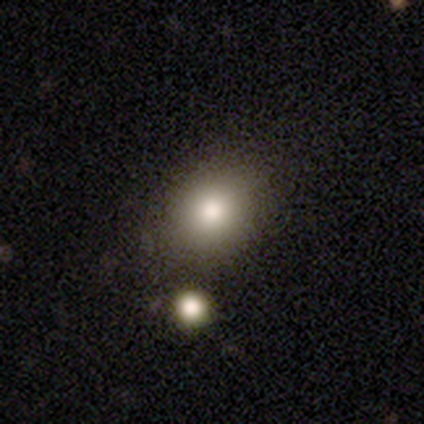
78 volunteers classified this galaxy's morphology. Smooth or featured: smooth — 86% (star or artifact — 8%)
How rounded: round — 64% (in between — 36%)
Merging: none — 39% (merger — 10%)